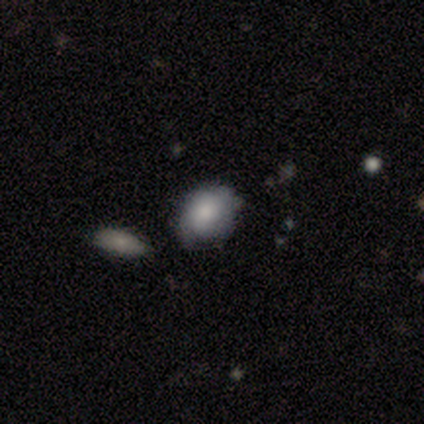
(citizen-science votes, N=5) This appears to be a smooth galaxy with no disk features (80%) that is round (50%, tied with in between). Merging: none (80%).